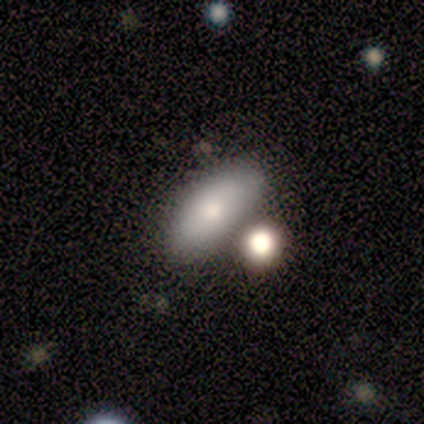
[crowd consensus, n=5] Morphology: type=smooth (100%); roundness=in between (100%); merging=none (80%).